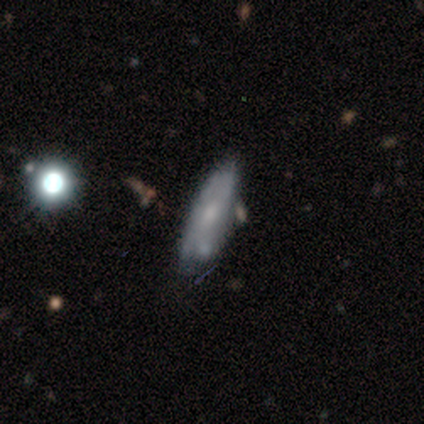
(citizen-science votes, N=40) Q: Smooth or featured?
A: featured or disk (55%); runner-up: smooth (42%)
Q: Edge-on disk?
A: no (68%); runner-up: yes (32%)
Q: Bar?
A: no (93%); runner-up: weak (7%)
Q: Spiral arms?
A: no (87%); runner-up: yes (13%)
Q: Bulge size?
A: small (67%); runner-up: moderate (20%)
Q: Merging?
A: none (51%); runner-up: minor disturbance (33%)